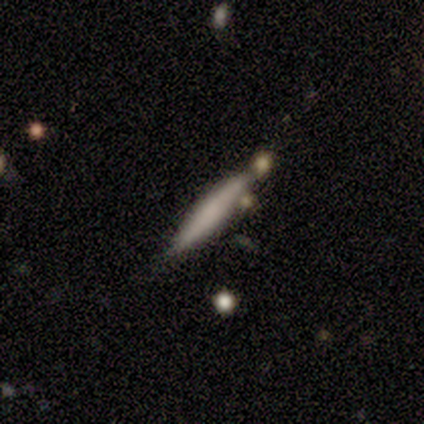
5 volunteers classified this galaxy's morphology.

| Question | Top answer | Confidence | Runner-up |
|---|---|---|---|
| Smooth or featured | smooth | 80% | star or artifact (20%) |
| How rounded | cigar-shaped | 100% | — |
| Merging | none | 100% | — |